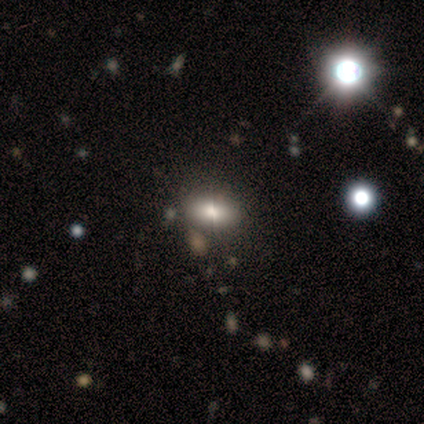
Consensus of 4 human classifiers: Smooth or featured? star or artifact (75%)